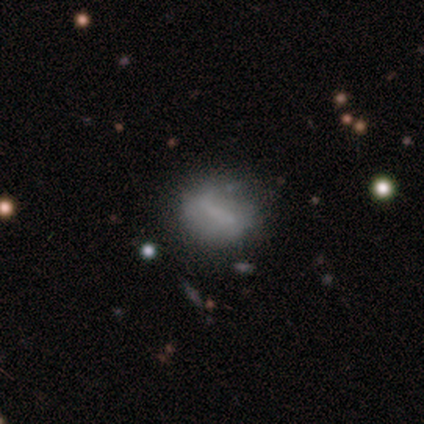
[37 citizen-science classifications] A smooth galaxy with no disk features (51%) that is round (58%). Merging: none (64%).